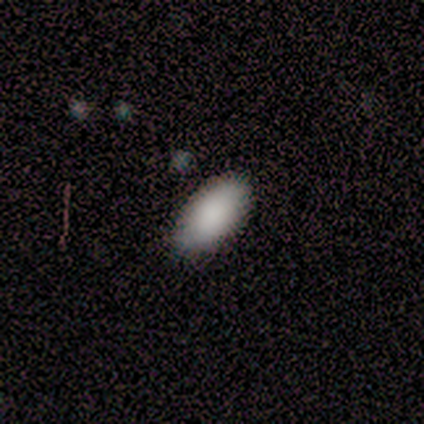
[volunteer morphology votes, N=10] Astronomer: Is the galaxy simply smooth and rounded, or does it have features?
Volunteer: smooth — 100%.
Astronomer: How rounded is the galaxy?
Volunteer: in between — 90%.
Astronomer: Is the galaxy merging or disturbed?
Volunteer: none — 80%.